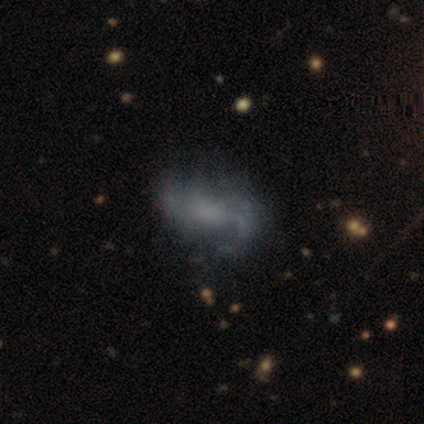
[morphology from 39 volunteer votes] smooth-or-featured: featured or disk: 79% | smooth: 18% | star or artifact: 3%
  disk-edge-on: no: 100% | yes: 0%
    bar: no: 55% | weak: 35% | strong: 10%
    has-spiral-arms: yes: 71% | no: 29%
      spiral-winding: loose: 45% | medium: 41% | tight: 14%
      spiral-arm-count: 2: 50% | can't tell: 36% | 1: 9% | 3: 5% | 4: 0% | more than 4: 0%
    bulge-size: none: 61% | moderate: 19% | large: 16% | dominant: 3% | small: 0%
  merging: none: 37% | minor disturbance: 21% | major disturbance: 11% | merger: 0%